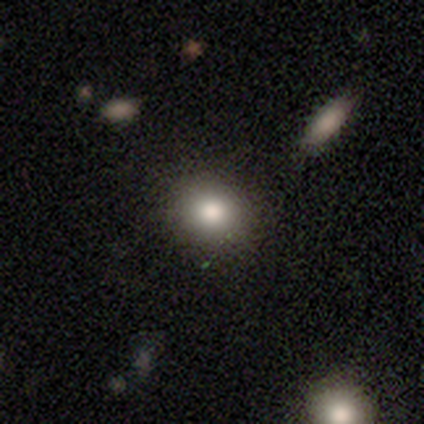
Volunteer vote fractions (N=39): Overall: smooth (79%). How rounded: round (74%). Merging: none (83%).